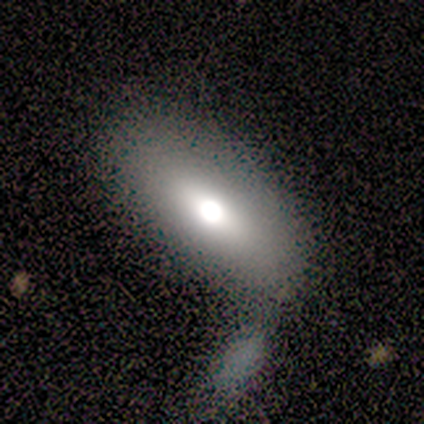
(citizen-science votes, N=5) A featured or disk galaxy (100%) with no bar (100%), no spiral arms (100%) and a moderate central bulge (75%). Merging: none (80%).